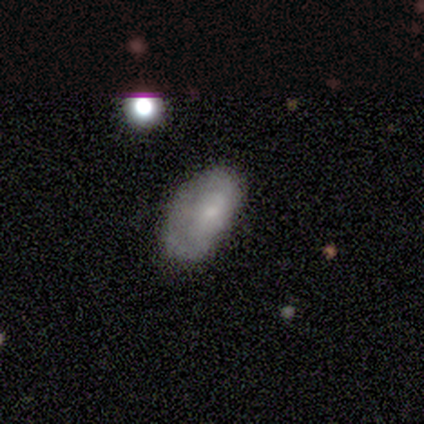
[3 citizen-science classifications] A smooth galaxy with no disk features (100%) that is in between round and cigar-shaped (100%).

Vote fractions:
- Smooth or featured? smooth: 100% / featured or disk: 0% / star or artifact: 0%
- How rounded? in between: 100% / round: 0% / cigar-shaped: 0%
- Merging? none: 67% / major disturbance: 33% / minor disturbance: 0% / merger: 0%